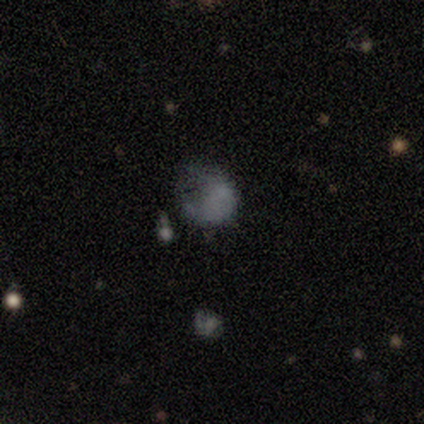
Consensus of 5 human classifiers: Morphology: type=smooth (40%, tied with featured or disk); roundness=round (50%, tied with in between); merging=major disturbance (50%).